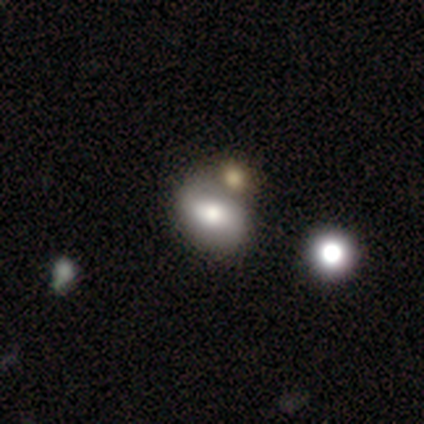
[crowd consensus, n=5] Overall: smooth (40%, tied with star or artifact). How rounded: in between (100%). Merging: merger (67%; none 33%).